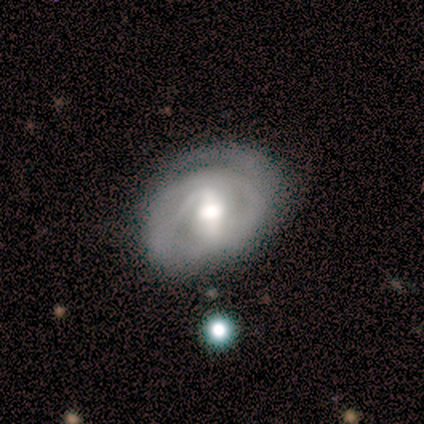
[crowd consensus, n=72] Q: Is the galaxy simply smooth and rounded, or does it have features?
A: featured or disk — 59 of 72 (82%).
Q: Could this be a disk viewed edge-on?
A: no — 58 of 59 (98%).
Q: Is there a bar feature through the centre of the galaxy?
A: strong — 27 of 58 (47%).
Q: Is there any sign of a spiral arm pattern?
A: yes — 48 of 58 (83%).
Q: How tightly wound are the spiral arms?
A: tight — 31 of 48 (65%).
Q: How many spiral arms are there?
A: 2 — 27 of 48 (56%).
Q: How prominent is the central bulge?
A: moderate — 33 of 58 (57%).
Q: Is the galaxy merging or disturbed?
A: none — 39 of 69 (57%).